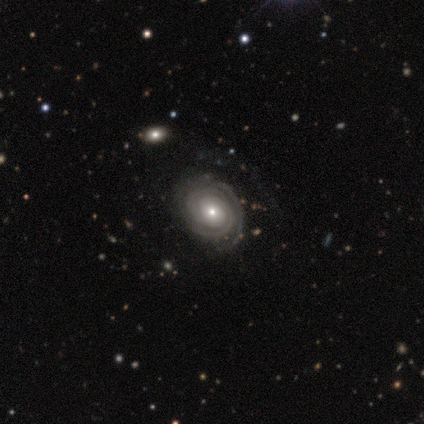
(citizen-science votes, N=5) Smooth or featured? 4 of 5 (80%) said featured or disk. Edge-on disk? 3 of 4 (75%) said no. Bar? 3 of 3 (100%) said no. Spiral arms? 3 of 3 (100%) said yes. Spiral winding? 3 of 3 (100%) said tight. Spiral arm count? 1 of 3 (33%, tied with 4 and can't tell) said 2. Bulge size? 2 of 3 (67%) said small. Merging? 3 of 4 (75%) said none.